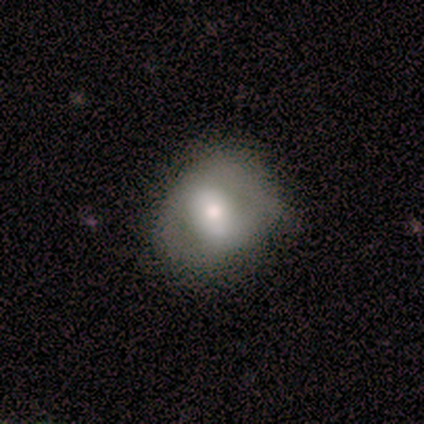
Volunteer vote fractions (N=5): This appears to be a smooth galaxy with no disk features (80%) that is in between round and cigar-shaped (100%). Merging: none (40%, tied with minor disturbance).